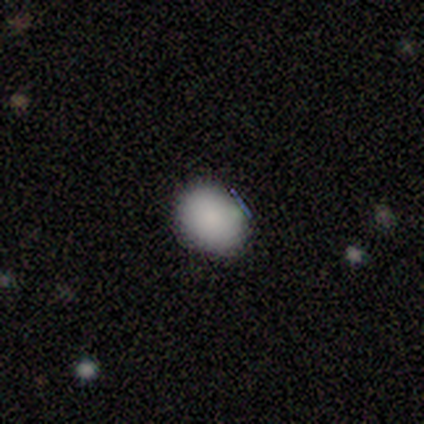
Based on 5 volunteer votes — This is clearly a smooth galaxy (80%). How rounded: likely round (75%). Merging: likely none (75%).